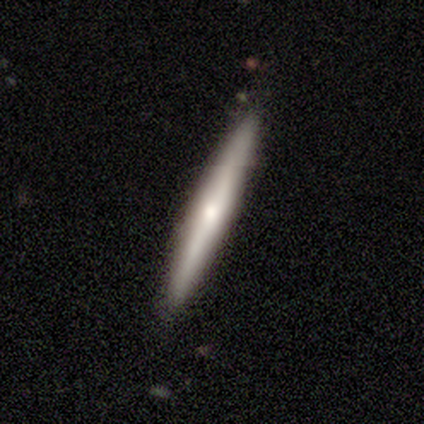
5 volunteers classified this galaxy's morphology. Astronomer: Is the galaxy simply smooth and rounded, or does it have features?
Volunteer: featured or disk — 60% (runner-up: smooth, 40%).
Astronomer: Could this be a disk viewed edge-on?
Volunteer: yes — 100%.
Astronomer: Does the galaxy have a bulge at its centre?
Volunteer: rounded — 100%.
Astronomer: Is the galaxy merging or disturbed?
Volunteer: none — 100%.